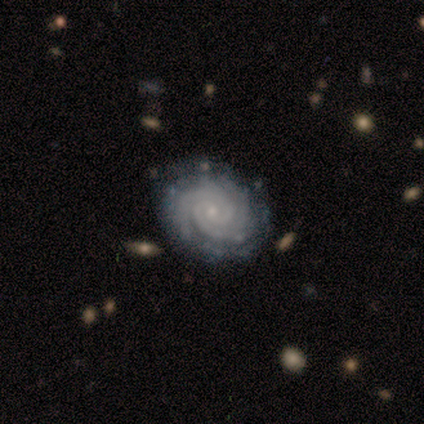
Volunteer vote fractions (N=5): Morphology: type=featured or disk (80%); edge-on=no (100%); bar=weak (75%); spiral arms=yes (100%); winding=tight (100%); arm count=more than 4 (50%); bulge=small (75%); merging=none (75%).